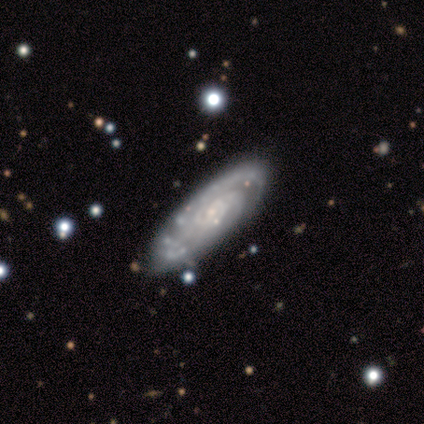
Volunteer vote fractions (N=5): Smooth or featured: featured or disk — 80% (smooth — 20%)
Edge-on disk: no — 100%
Bar: no — 75% (weak — 25%)
Spiral arms: yes — 100%
Spiral winding: tight — 75% (medium — 25%)
Spiral arm count: 2 — 50% (3 — 25%)
Bulge size: small — 100%
Merging: none — 80% (minor disturbance — 20%)